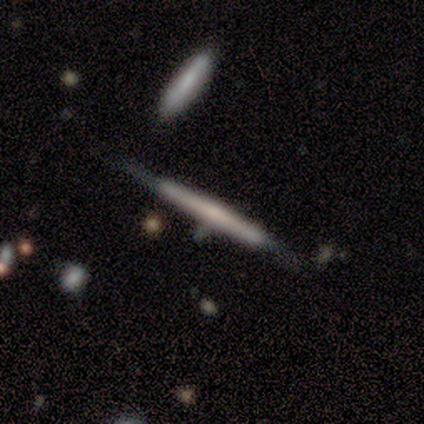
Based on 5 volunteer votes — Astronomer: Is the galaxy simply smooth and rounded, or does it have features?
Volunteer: featured or disk — 80%.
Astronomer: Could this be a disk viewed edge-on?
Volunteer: yes — 100%.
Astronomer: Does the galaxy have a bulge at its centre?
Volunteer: none — 50%.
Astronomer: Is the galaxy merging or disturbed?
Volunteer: minor disturbance — 80%.